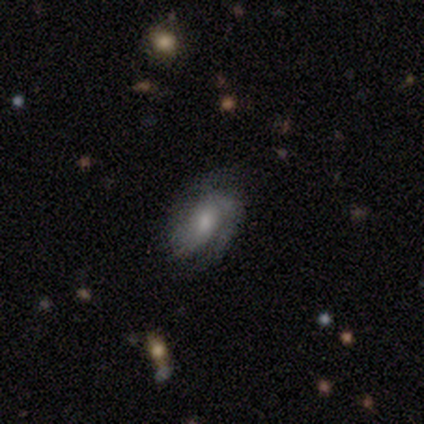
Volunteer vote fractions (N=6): Q: Smooth or featured?
A: featured or disk (67%); runner-up: smooth (33%)
Q: Edge-on disk?
A: no (100%)
Q: Bar?
A: no (75%); runner-up: weak (25%)
Q: Spiral arms?
A: yes (100%)
Q: Spiral winding?
A: tight (50%); tied with: medium (50%)
Q: Spiral arm count?
A: 2 (75%); runner-up: 1 (25%)
Q: Bulge size?
A: small (75%); runner-up: moderate (25%)
Q: Merging?
A: none (50%); runner-up: major disturbance (33%)